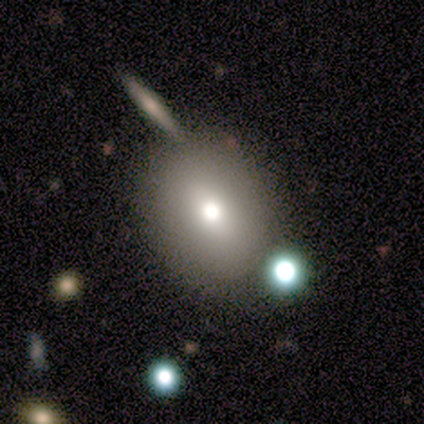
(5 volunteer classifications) A smooth galaxy with no disk features (80%) that is round (50%, tied with in between). Merging: none (80%).